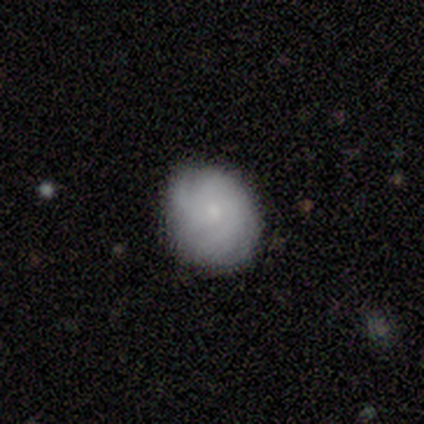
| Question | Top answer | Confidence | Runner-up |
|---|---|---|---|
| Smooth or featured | smooth | 60% | featured or disk (20%) |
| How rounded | round | 100% | — |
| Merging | none | 100% | — |